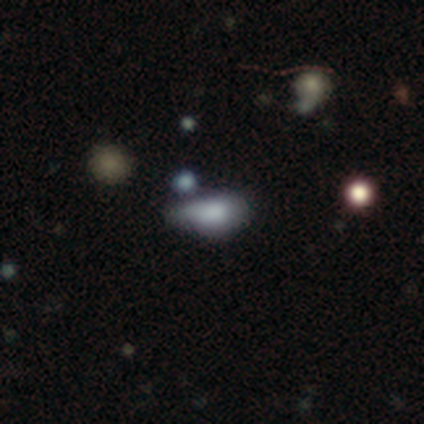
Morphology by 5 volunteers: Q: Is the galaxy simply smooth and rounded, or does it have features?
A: smooth — 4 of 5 (80%).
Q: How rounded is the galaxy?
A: in between — 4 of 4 (100%).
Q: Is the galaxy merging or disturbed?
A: merger — 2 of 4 (50%).